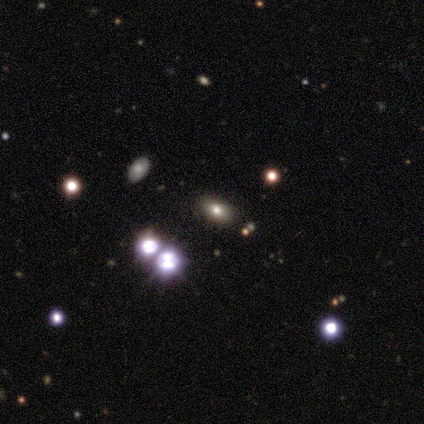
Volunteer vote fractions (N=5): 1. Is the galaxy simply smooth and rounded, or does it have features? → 80% smooth, 20% star or artifact, 0% featured or disk.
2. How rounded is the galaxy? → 50% round (tied), 50% in between (tied), 0% cigar-shaped.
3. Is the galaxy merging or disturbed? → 100% none, 0% minor disturbance, 0% major disturbance, 0% merger.